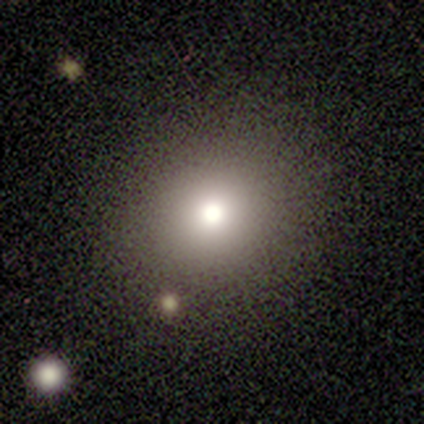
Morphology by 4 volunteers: Smooth or featured: smooth — 100%
How rounded: round — 50% (tied with in between — 50%)
Merging: none — 75% (minor disturbance — 25%)